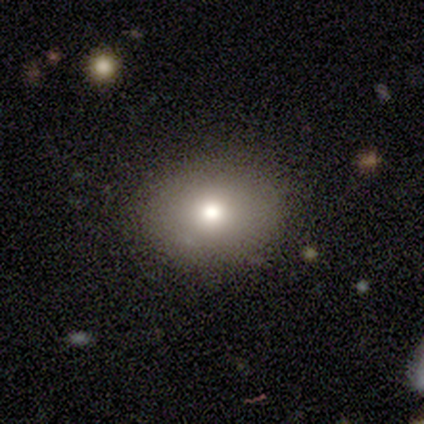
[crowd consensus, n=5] This appears to be a smooth galaxy with no disk features (80%) that is in between round and cigar-shaped (75%). Merging: none (75%).